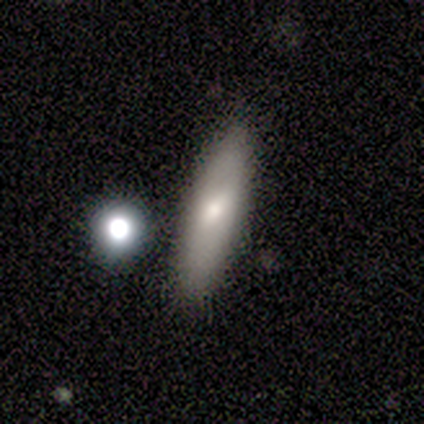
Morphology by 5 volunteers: A smooth galaxy with no disk features (40%, tied with featured or disk) that is in between round and cigar-shaped (50%, tied with cigar-shaped).

Vote fractions:
- Smooth or featured? smooth: 40% (tied) / featured or disk: 40% (tied) / star or artifact: 20%
- How rounded? in between: 50% (tied) / cigar-shaped: 50% (tied) / round: 0%
- Merging? none: 50% / minor disturbance: 25% / major disturbance: 25% / merger: 0%